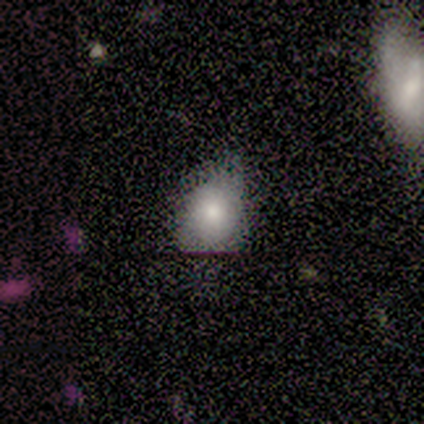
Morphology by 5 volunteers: A smooth galaxy with no disk features (80%) that is in between round and cigar-shaped (75%).

Vote fractions:
- Smooth or featured? smooth: 80% / featured or disk: 20% / star or artifact: 0%
- How rounded? in between: 75% / round: 25% / cigar-shaped: 0%
- Merging? none: 40% (tied) / minor disturbance: 40% (tied) / major disturbance: 20% / merger: 0%